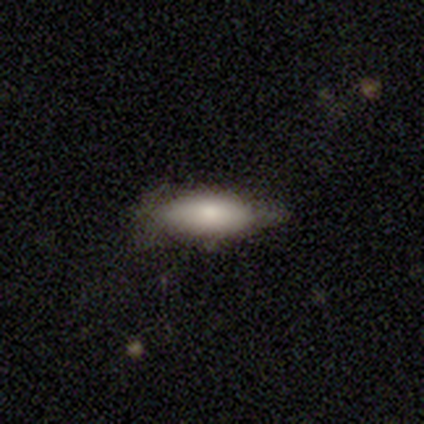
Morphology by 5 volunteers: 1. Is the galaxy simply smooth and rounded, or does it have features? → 80% smooth, 20% featured or disk, 0% star or artifact.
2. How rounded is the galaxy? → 75% in between, 25% cigar-shaped, 0% round.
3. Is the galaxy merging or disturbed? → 60% none, 40% minor disturbance, 0% major disturbance, 0% merger.